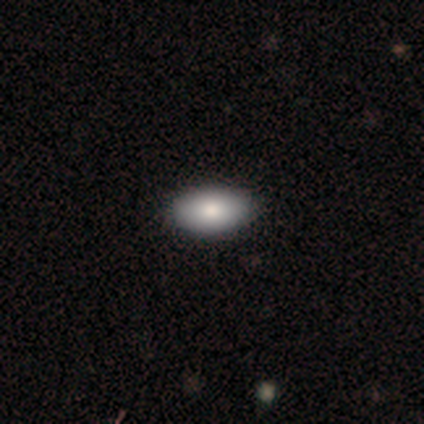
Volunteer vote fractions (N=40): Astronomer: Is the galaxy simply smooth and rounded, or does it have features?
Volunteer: smooth — 88%.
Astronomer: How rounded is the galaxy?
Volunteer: in between — 91%.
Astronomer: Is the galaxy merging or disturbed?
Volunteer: none — 95%.